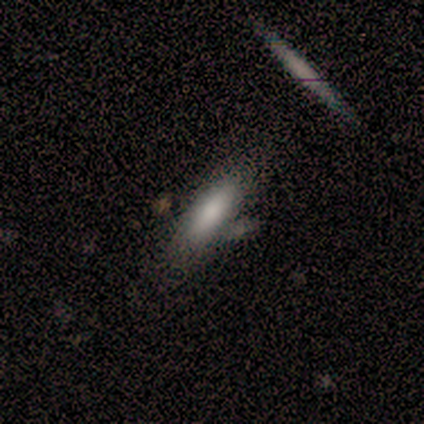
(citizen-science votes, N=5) Morphology: type=smooth (40%, tied with star or artifact); roundness=in between (50%, tied with cigar-shaped); merging=merger (67%).